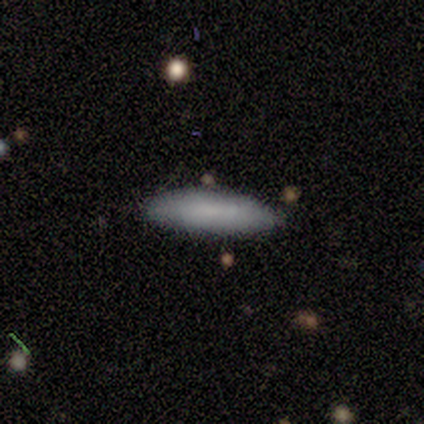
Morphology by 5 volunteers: Q: Smooth or featured?
A: smooth (100%)
Q: How rounded?
A: cigar-shaped (80%); runner-up: in between (20%)
Q: Merging?
A: none (80%); runner-up: minor disturbance (20%)